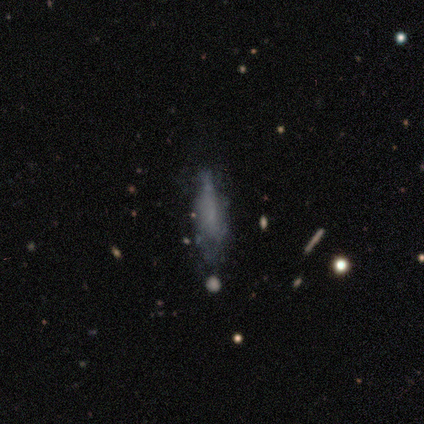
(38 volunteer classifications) featured or disk 58%, smooth 42%, star or artifact 0%. Down the decision tree: edge-on disk — no (64%); bar — no (93%); spiral arms — no (79%); bulge size — none (93%); merging — none (66%).